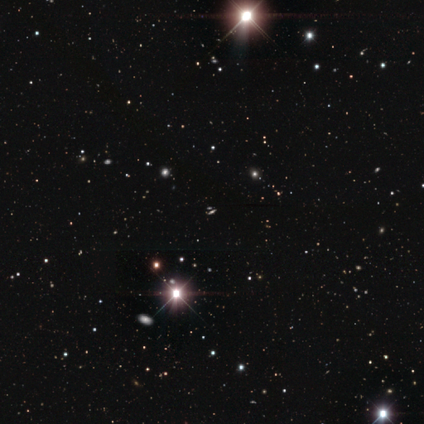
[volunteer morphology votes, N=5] A featured or disk galaxy (40%, tied with star or artifact) viewed edge-on (100%) with a rounded central bulge (100%).

Vote fractions:
- Smooth or featured? featured or disk: 40% (tied) / star or artifact: 40% (tied) / smooth: 20%
- Edge-on disk? yes: 100% / no: 0%
- Edge-on bulge? rounded: 100% / boxy: 0% / none: 0%
- Merging? none: 67% / minor disturbance: 33% / major disturbance: 0% / merger: 0%